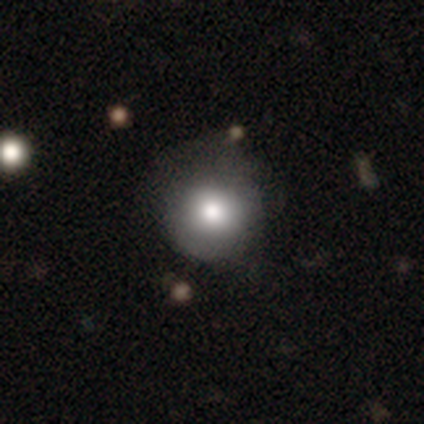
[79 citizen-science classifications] A smooth galaxy with no disk features (82%) that is round (92%). Merging: none (24%).